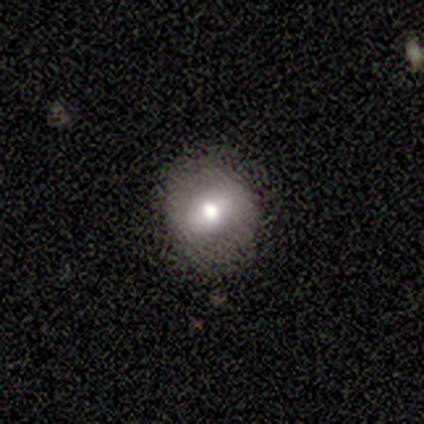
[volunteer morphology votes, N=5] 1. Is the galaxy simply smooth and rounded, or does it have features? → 80% smooth, 20% featured or disk, 0% star or artifact.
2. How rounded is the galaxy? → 75% round, 25% in between, 0% cigar-shaped.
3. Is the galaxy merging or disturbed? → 80% none, 20% major disturbance, 0% minor disturbance, 0% merger.